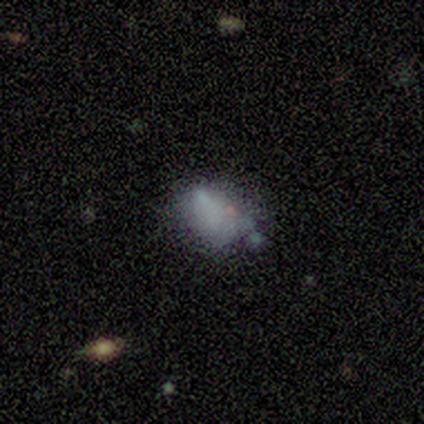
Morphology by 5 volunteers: This is likely a smooth galaxy (60%). How rounded: clearly in between (100%). Merging: likely none (60%).